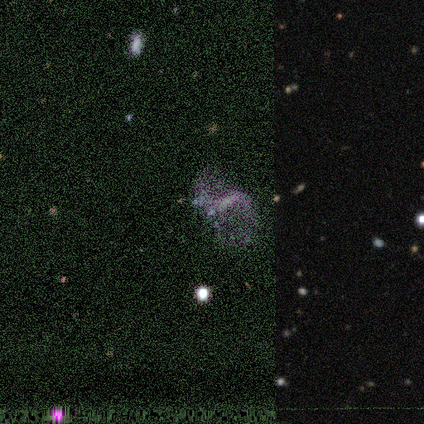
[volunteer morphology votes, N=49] Overall: featured or disk (61%). Edge-on disk: no (97%). Bar: strong (45%; weak 31%). Spiral arms: yes (69%; no 31%). Spiral arm count: 2 (90%). Spiral winding: loose (75%). Bulge size: none (52%; small 31%). Merging: none (46%; major disturbance 23%).